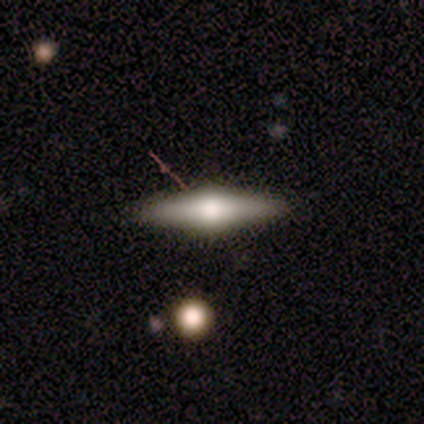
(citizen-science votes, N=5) Morphology: type=smooth (40%, tied with featured or disk); roundness=cigar-shaped (100%); merging=none (100%).